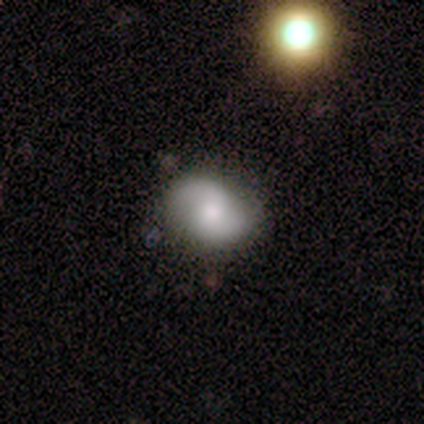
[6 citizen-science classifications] Smooth or featured: featured or disk — 83% (smooth — 17%)
Edge-on disk: no — 100%
Bar: no — 60% (weak — 40%)
Spiral arms: yes — 100%
Spiral winding: medium — 40% (tied with loose — 40%)
Spiral arm count: 2 — 80% (can't tell — 20%)
Bulge size: moderate — 100%
Merging: none — 67% (minor disturbance — 33%)